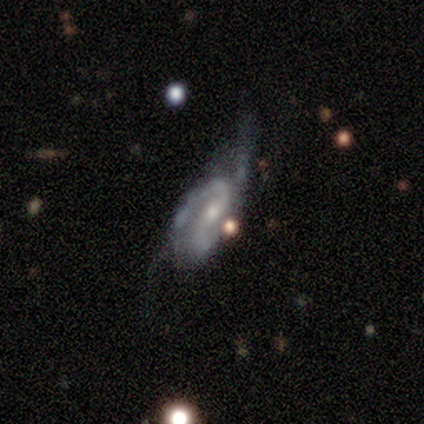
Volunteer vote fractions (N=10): Q: Smooth or featured?
A: featured or disk (70%); runner-up: star or artifact (20%)
Q: Edge-on disk?
A: no (100%)
Q: Bar?
A: weak (57%); runner-up: strong (29%)
Q: Spiral arms?
A: yes (86%); runner-up: no (14%)
Q: Spiral winding?
A: tight (50%); tied with: medium (50%)
Q: Spiral arm count?
A: 2 (100%)
Q: Bulge size?
A: small (57%); runner-up: moderate (43%)
Q: Merging?
A: major disturbance (38%); runner-up: none (25%)